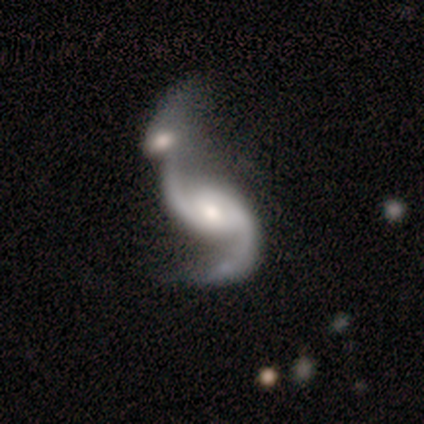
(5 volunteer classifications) smooth_or_featured: featured or disk (p=0.60) [alt: smooth p=0.40]
disk_edge_on: no (p=1.00)
bar: weak (p=0.67) [alt: no p=0.33]
has_spiral_arms: yes (p=1.00)
spiral_winding: loose (p=1.00)
spiral_arm_count: 2 (p=1.00)
bulge_size: moderate (p=0.67) [alt: small p=0.33]
merging: merger (p=1.00)